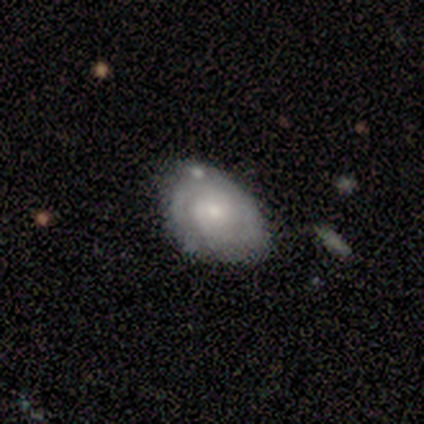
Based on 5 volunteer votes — smooth-or-featured: featured or disk: 100% | smooth: 0% | star or artifact: 0%
  disk-edge-on: no: 100% | yes: 0%
    bar: no: 100% | strong: 0% | weak: 0%
    has-spiral-arms: yes: 100% | no: 0%
      spiral-winding: tight: 80% | medium: 20% | loose: 0%
      spiral-arm-count: 2: 60% | can't tell: 40% | 1: 0% | 3: 0% | 4: 0% | more than 4: 0%
    bulge-size: small: 100% | dominant: 0% | large: 0% | moderate: 0% | none: 0%
  merging: none: 100% | minor disturbance: 0% | major disturbance: 0% | merger: 0%